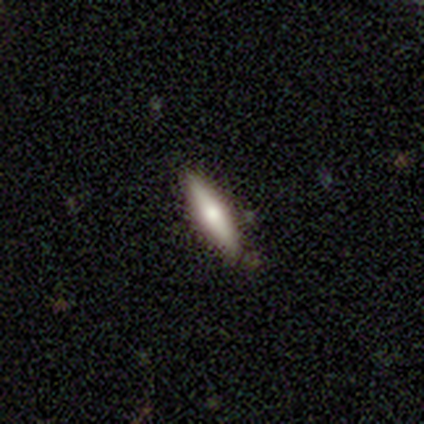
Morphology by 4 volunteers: This appears to be a smooth galaxy with no disk features (75%) that is cigar-shaped (67%). Merging: none (100%).